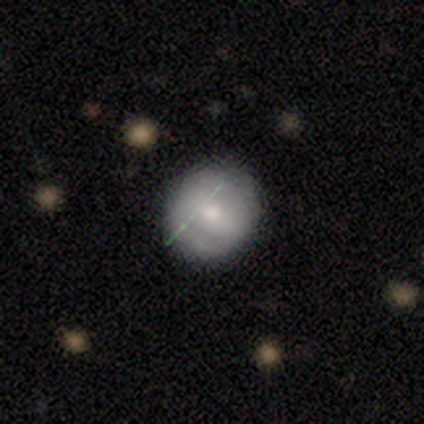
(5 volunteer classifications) A smooth galaxy with no disk features (40%, tied with featured or disk) that is round (100%). Merging: none (75%).